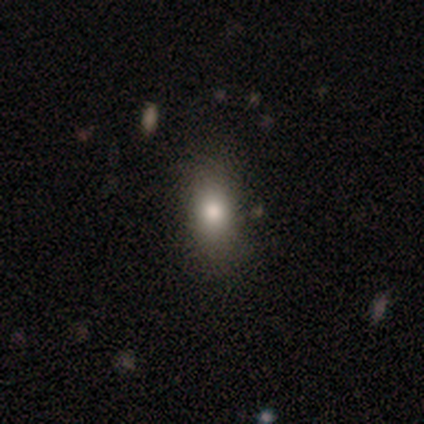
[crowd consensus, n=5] smooth-or-featured: smooth: 60% | star or artifact: 40% | featured or disk: 0%
  how-rounded: in between: 100% | round: 0% | cigar-shaped: 0%
  merging: none: 100% | minor disturbance: 0% | major disturbance: 0% | merger: 0%